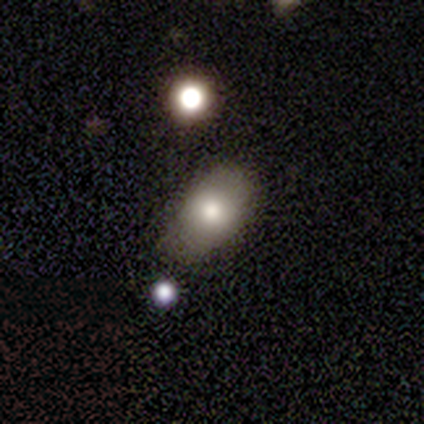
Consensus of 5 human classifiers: smooth 80%, featured or disk 20%, star or artifact 0%. Down the decision tree: how rounded — round (50%, tied with in between); merging — none (60%).